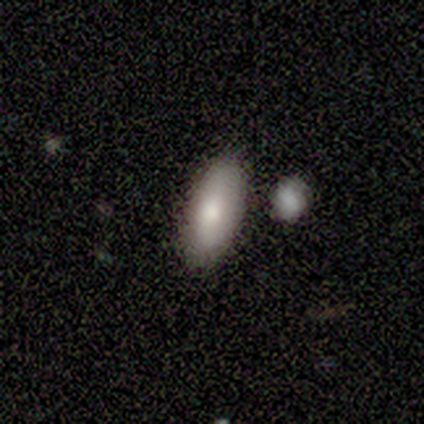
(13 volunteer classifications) Smooth or featured? 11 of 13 (85%) said smooth. How rounded? 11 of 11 (100%) said in between. Merging? 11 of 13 (85%) said none.